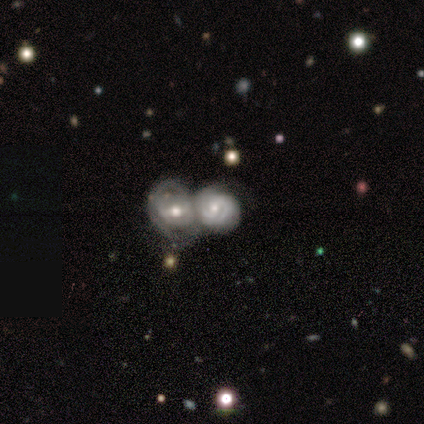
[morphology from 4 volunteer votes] Q: Smooth or featured?
A: featured or disk (75%); runner-up: smooth (25%)
Q: Edge-on disk?
A: no (100%)
Q: Bar?
A: strong (33%); tied with: weak (33%); no (33%)
Q: Spiral arms?
A: yes (100%)
Q: Spiral winding?
A: medium (67%); runner-up: tight (33%)
Q: Spiral arm count?
A: 2 (100%)
Q: Bulge size?
A: moderate (67%); runner-up: small (33%)
Q: Merging?
A: none (50%); tied with: merger (50%)